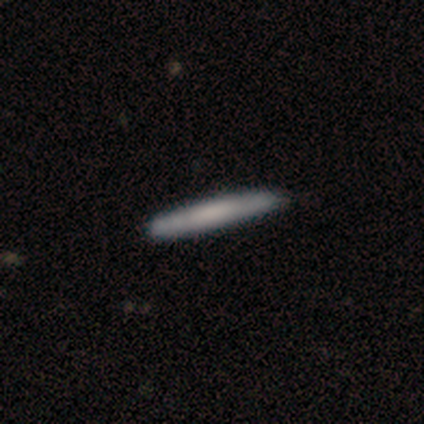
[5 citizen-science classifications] This appears to be a smooth galaxy with no disk features (80%) that is cigar-shaped (100%). Merging: none (80%).